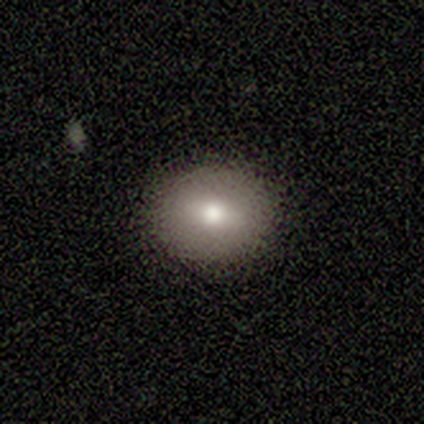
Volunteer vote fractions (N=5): Overall: smooth (100%). How rounded: in between (60%; round 40%). Merging: none (60%; minor disturbance 40%).